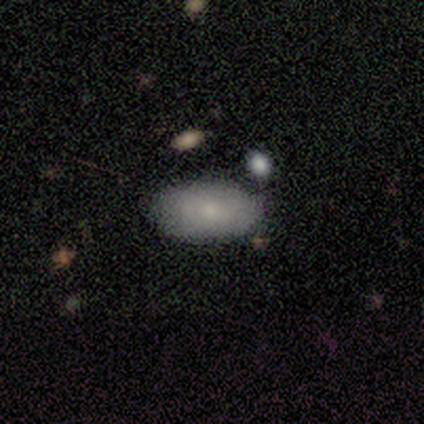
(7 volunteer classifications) Smooth or featured? 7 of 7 (100%) said smooth. How rounded? 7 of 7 (100%) said in between. Merging? 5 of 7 (71%) said none.